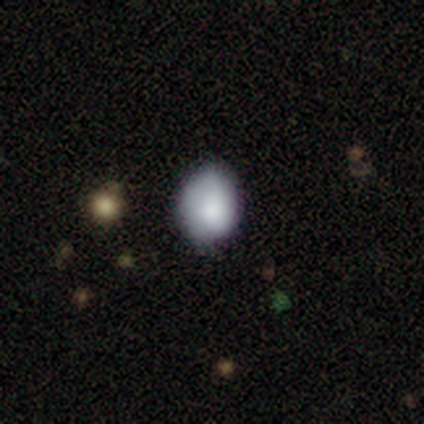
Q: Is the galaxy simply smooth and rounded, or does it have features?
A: smooth — 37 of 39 (95%).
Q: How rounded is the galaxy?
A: in between — 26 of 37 (70%).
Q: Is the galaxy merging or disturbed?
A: none — 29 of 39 (74%).